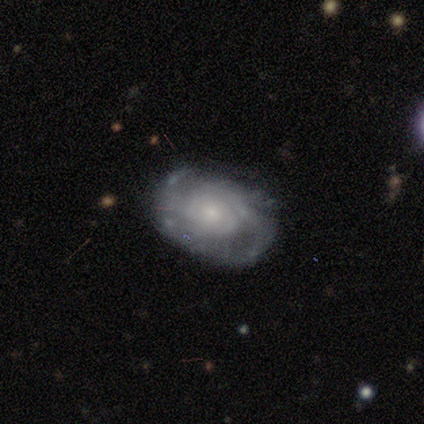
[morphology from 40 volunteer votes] A featured or disk galaxy (80%) with no bar (79%), tight (68%) spiral arms (86%) and a small central bulge (45%).

Vote fractions:
- Smooth or featured? featured or disk: 80% / smooth: 12% / star or artifact: 8%
- Edge-on disk? no: 91% / yes: 9%
- Bar? no: 79% / weak: 17% / strong: 3%
- Spiral arms? yes: 86% / no: 14%
- Spiral winding? tight: 68% / medium: 24% / loose: 8%
- Spiral arm count? can't tell: 48% / 2: 36% / 4: 12% / more than 4: 4% / 1: 0% / 3: 0%
- Bulge size? small: 45% / moderate: 41% / large: 10% / none: 3% / dominant: 0%
- Merging? none: 76% / minor disturbance: 16% / major disturbance: 5% / merger: 3%